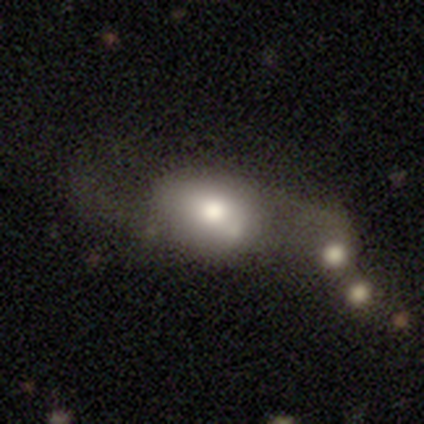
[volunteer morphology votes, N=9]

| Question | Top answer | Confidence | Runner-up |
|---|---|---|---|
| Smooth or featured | smooth | 78% | featured or disk (11%) |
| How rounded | in between | 71% | round (29%) |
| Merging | merger | 62% | none (25%) |